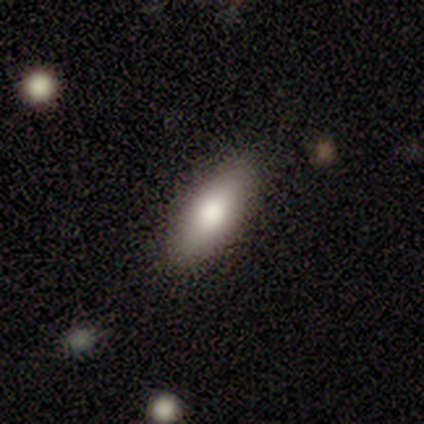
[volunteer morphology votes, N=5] Smooth or featured? smooth (40%, tied with star or artifact)
How rounded? in between (100%)
Merging? none (100%)